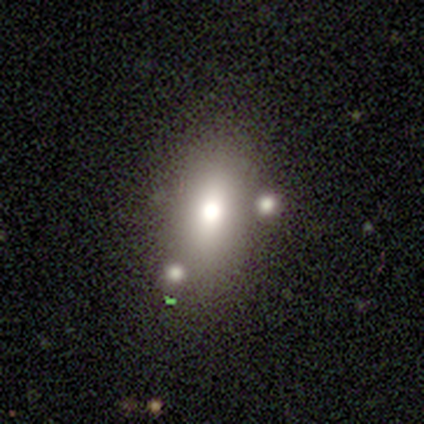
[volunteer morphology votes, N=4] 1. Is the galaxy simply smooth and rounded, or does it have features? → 75% smooth, 25% featured or disk, 0% star or artifact.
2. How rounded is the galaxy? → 100% in between, 0% round, 0% cigar-shaped.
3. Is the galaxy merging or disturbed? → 100% none, 0% minor disturbance, 0% major disturbance, 0% merger.